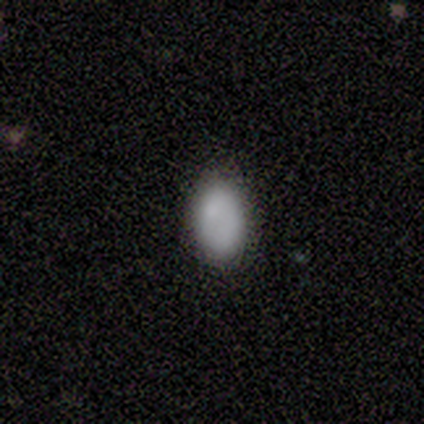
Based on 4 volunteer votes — Morphology: type=smooth (100%); roundness=in between (100%); merging=none (100%).